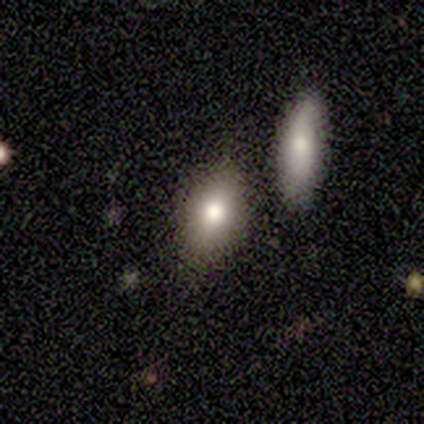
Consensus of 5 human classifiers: Smooth or featured? smooth (60%)
How rounded? in between (100%)
Merging? none (80%)